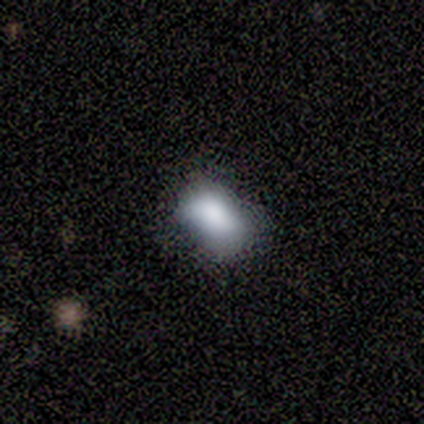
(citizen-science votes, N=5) smooth 100%, featured or disk 0%, star or artifact 0%. Down the decision tree: how rounded — in between (100%); merging — none (60%).